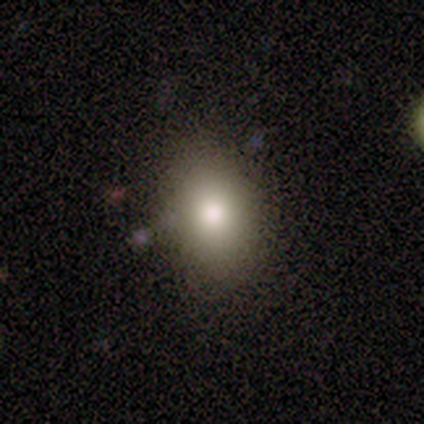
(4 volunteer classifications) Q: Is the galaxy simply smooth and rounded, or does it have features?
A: smooth — 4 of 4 (100%).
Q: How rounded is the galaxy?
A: in between — 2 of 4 (50%).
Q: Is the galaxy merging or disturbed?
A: none — 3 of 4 (75%).